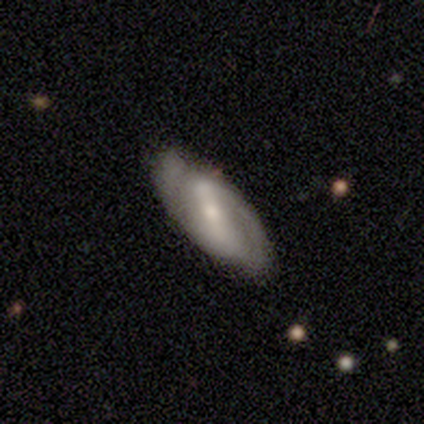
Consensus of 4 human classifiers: Smooth or featured? featured or disk (75%)
Edge-on disk? no (100%)
Bar? strong (67%)
Spiral arms? yes (100%)
Spiral winding? medium (100%)
Spiral arm count? 2 (100%)
Bulge size? large (33%, tied with moderate and small)
Merging? none (50%, tied with minor disturbance)